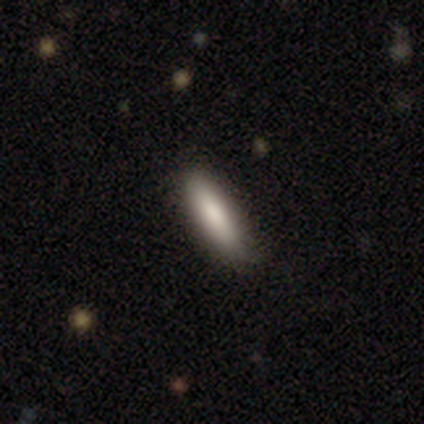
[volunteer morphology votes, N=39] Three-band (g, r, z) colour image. It shows a smooth galaxy with no disk features (79%) that is cigar-shaped (84%). Merging: none (81%).